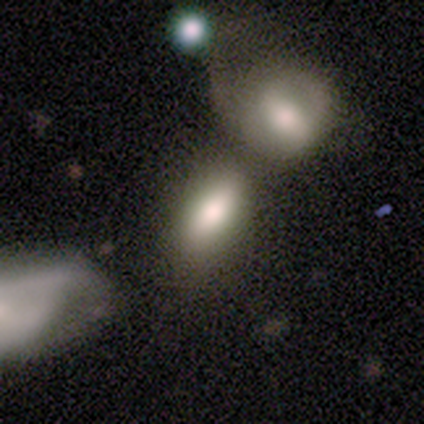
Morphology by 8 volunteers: A smooth galaxy with no disk features (75%) that is in between round and cigar-shaped (100%). Merging: merger (67%).